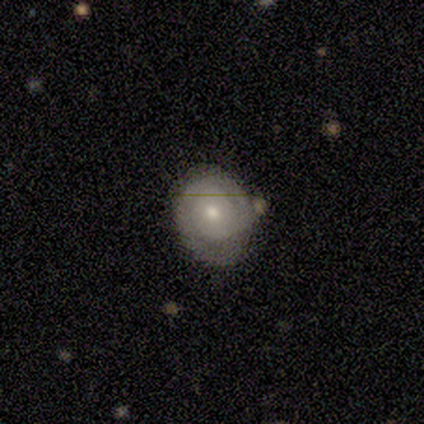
Overall: smooth (44%, tied with featured or disk). How rounded: round (75%). Merging: none (50%; minor disturbance 25%).